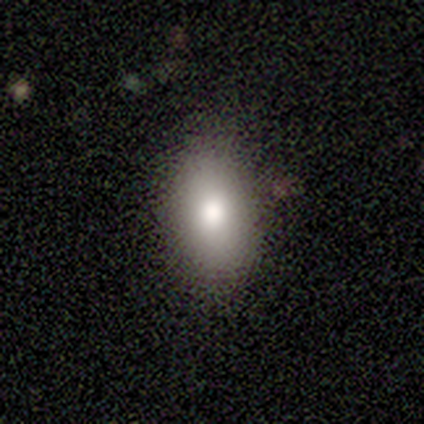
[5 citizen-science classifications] smooth-or-featured: smooth: 80% | star or artifact: 20% | featured or disk: 0%
  how-rounded: in between: 100% | round: 0% | cigar-shaped: 0%
  merging: none: 100% | minor disturbance: 0% | major disturbance: 0% | merger: 0%